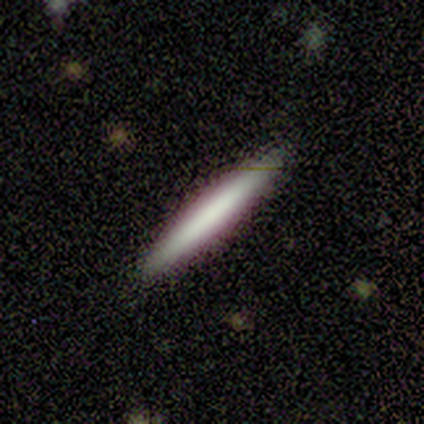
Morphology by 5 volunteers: A smooth galaxy with no disk features (80%) that is cigar-shaped (100%). Merging: none (100%).